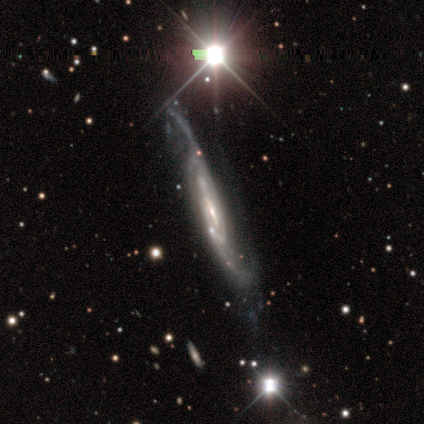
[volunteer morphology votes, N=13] featured or disk 92%, smooth 8%, star or artifact 0%. Down the decision tree: edge-on disk — no (92%); bar — weak (45%); spiral arms — yes (100%); spiral arm count — 2 (55%); spiral winding — medium (73%); bulge size — small (64%); merging — none (54%).